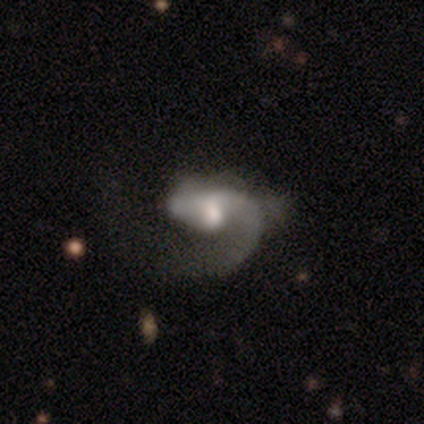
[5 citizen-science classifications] smooth-or-featured: featured or disk: 100% | smooth: 0% | star or artifact: 0%
  disk-edge-on: no: 100% | yes: 0%
    bar: no: 100% | strong: 0% | weak: 0%
    has-spiral-arms: yes: 100% | no: 0%
      spiral-winding: medium: 40% (tied) | loose: 40% (tied) | tight: 20%
      spiral-arm-count: 1: 100% | 2: 0% | 3: 0% | 4: 0% | more than 4: 0% | can't tell: 0%
    bulge-size: large: 60% | moderate: 40% | dominant: 0% | small: 0% | none: 0%
  merging: major disturbance: 80% | minor disturbance: 20% | none: 0% | merger: 0%